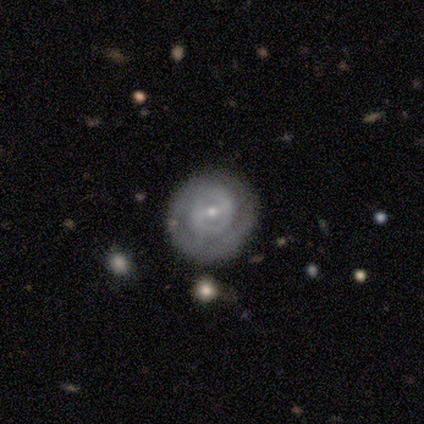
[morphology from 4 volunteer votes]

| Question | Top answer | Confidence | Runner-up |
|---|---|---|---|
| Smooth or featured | featured or disk | 75% | smooth (25%) |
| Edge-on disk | no | 100% | — |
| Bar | strong | 33% | tied: weak (33%), no (33%) |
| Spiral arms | yes | 100% | — |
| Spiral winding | medium | 67% | tight (33%) |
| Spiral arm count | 1 | 33% | tied: 2 (33%), can't tell (33%) |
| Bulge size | small | 67% | moderate (33%) |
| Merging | none | 75% | minor disturbance (25%) |